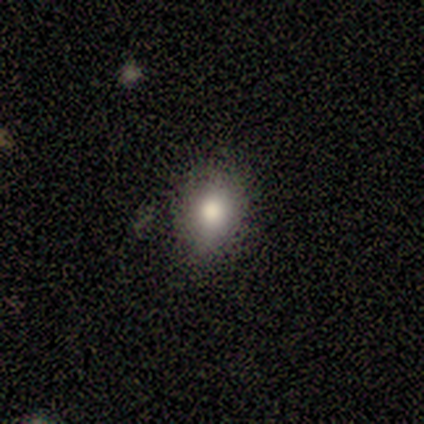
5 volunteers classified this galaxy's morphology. smooth_or_featured: smooth (p=0.80) [alt: featured or disk p=0.20]
how_rounded: in between (p=0.75) [alt: round p=0.25]
merging: none (p=0.60) [alt: minor disturbance p=0.40]